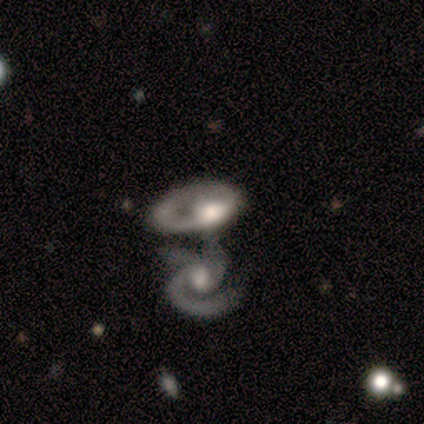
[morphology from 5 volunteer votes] Volunteers were most divided on "bar" (2-way tie): weak: 50%, no: 50%, strong: 0%. More confident: edge-on disk — no (100%); smooth or featured — featured or disk (80%); merging — merger (80%); spiral arms — yes (75%); bulge size — moderate (75%); spiral winding — tight (67%); spiral arm count — 3 (67%).